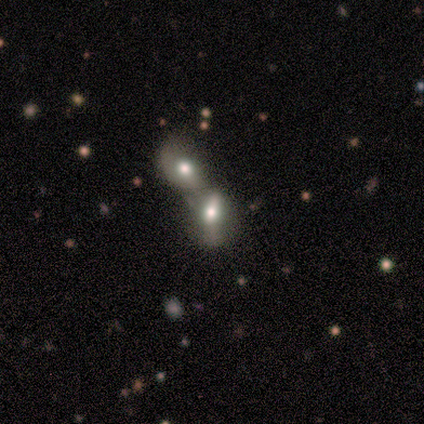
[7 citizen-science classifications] smooth-or-featured: featured or disk: 57% | smooth: 43% | star or artifact: 0%
  disk-edge-on: no: 100% | yes: 0%
    bar: weak: 50% (tied) | no: 50% (tied) | strong: 0%
    has-spiral-arms: no: 100% | yes: 0%
    bulge-size: moderate: 50% | large: 25% | small: 25% | dominant: 0% | none: 0%
  merging: merger: 71% | minor disturbance: 29% | none: 0% | major disturbance: 0%